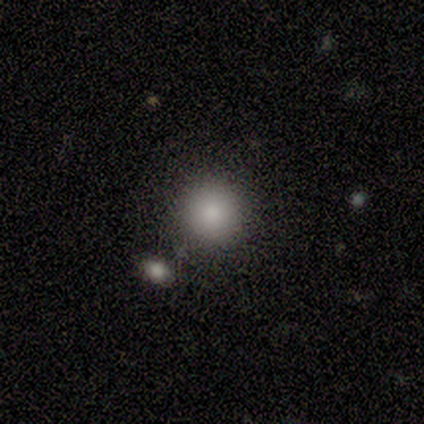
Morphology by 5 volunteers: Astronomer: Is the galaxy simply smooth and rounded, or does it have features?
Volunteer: smooth — 100%.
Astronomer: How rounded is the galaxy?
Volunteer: round — 80%.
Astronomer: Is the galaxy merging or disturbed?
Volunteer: none — 100%.